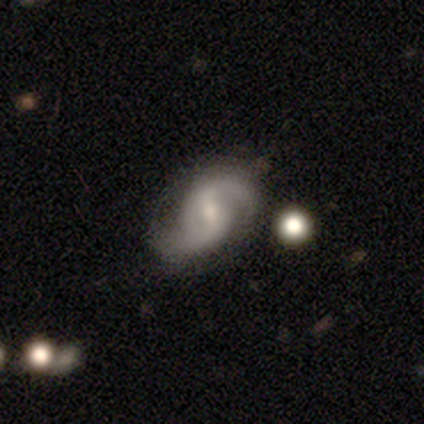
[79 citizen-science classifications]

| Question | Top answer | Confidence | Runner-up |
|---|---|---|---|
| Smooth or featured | featured or disk | 95% | smooth (4%) |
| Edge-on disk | no | 95% | yes (5%) |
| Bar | weak | 63% | strong (21%) |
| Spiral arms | yes | 97% | no (3%) |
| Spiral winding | medium | 48% | loose (42%) |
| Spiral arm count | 2 | 94% | can't tell (3%) |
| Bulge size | small | 59% | moderate (30%) |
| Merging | none | 37% | minor disturbance (19%) |